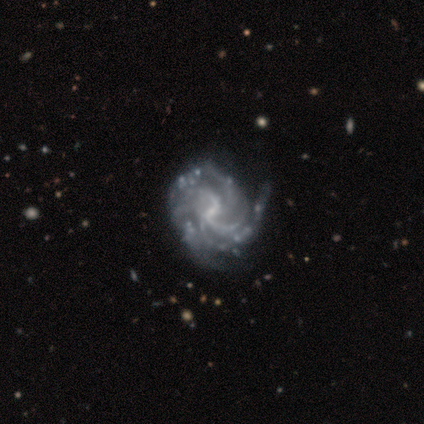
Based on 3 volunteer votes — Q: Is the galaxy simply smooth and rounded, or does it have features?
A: featured or disk — 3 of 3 (100%).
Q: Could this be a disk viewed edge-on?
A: no — 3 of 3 (100%).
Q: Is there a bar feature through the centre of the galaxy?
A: weak — 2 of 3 (67%).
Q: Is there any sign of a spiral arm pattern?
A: yes — 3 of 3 (100%).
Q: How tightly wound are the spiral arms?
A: tight — 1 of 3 (33%, tied with medium and loose).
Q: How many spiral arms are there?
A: can't tell — 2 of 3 (67%).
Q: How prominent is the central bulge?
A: small — 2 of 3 (67%).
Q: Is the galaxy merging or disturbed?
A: minor disturbance — 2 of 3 (67%).